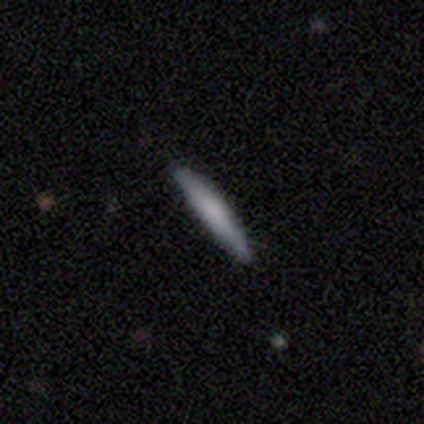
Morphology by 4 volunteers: smooth 50% (tied), featured or disk 50% (tied), star or artifact 0%. Down the decision tree: how rounded — cigar-shaped (100%); merging — none (100%).